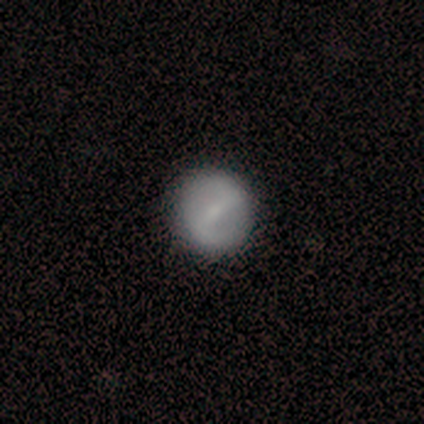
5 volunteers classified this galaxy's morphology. This appears to be a featured or disk galaxy (80%) with a strong bar (50%, tied with weak), 2 (67%) tight (33%, tied with medium and loose) spiral arms (75%) and a small central bulge (100%). Merging: none (100%).